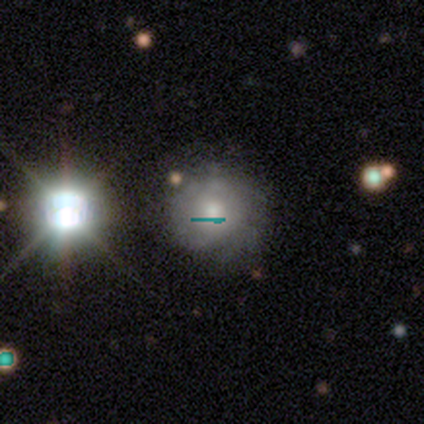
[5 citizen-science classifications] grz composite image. It shows a featured or disk galaxy (40%, tied with star or artifact) with no bar (100%), 2 (50%, tied with can't tell) tight (100%) spiral arms (100%) and a moderate central bulge (100%). Merging: none (100%).